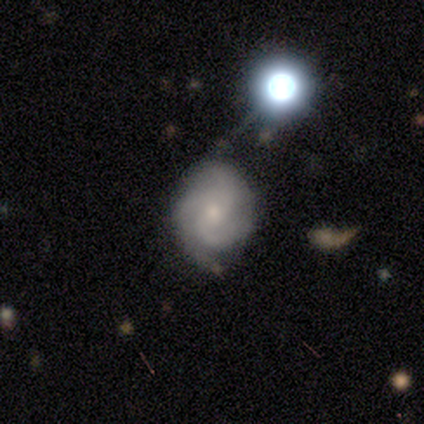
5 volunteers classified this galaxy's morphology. type=featured or disk (60%); edge-on=no (67%); bar=no (100%); spiral arms=yes (100%); winding=tight (100%); arm count=3 (100%); bulge=small (100%); merging=none (40%, tied with minor disturbance).